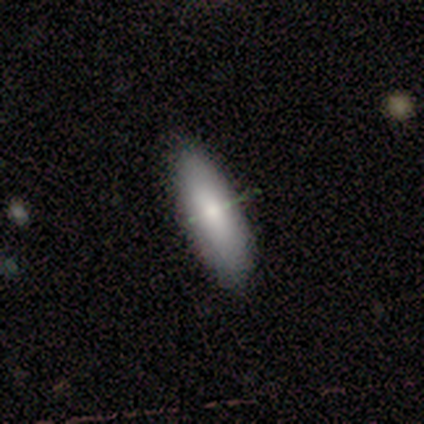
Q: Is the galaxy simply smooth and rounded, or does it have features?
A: smooth — 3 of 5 (60%).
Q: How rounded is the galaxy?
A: in between — 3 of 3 (100%).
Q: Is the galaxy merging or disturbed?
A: none — 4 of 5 (80%).